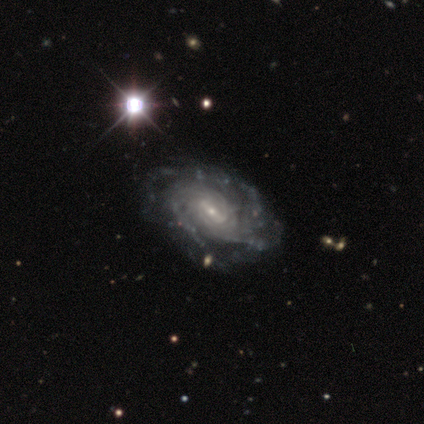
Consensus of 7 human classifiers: Q: Smooth or featured?
A: featured or disk (100%)
Q: Edge-on disk?
A: no (100%)
Q: Bar?
A: weak (86%); runner-up: strong (14%)
Q: Spiral arms?
A: yes (100%)
Q: Spiral winding?
A: tight (71%); runner-up: medium (29%)
Q: Spiral arm count?
A: can't tell (71%); runner-up: 4 (14%)
Q: Bulge size?
A: small (71%); runner-up: moderate (29%)
Q: Merging?
A: none (71%); runner-up: minor disturbance (29%)